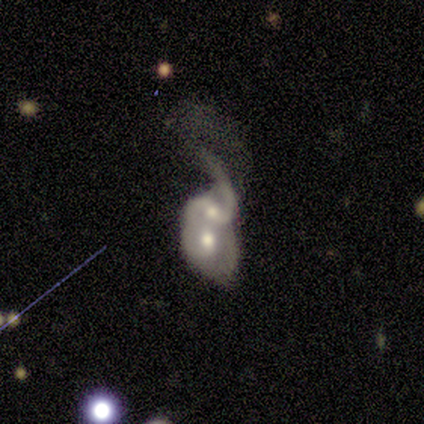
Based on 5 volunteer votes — Volunteers were most divided on "spiral winding" (2-way tie): medium: 50%, loose: 50%, tight: 0%. More confident: edge-on disk — no (100%); spiral arms — yes (100%); bulge size — moderate (100%); merging — merger (100%); smooth or featured — featured or disk (80%); bar — weak (75%); spiral arm count — 2 (75%).